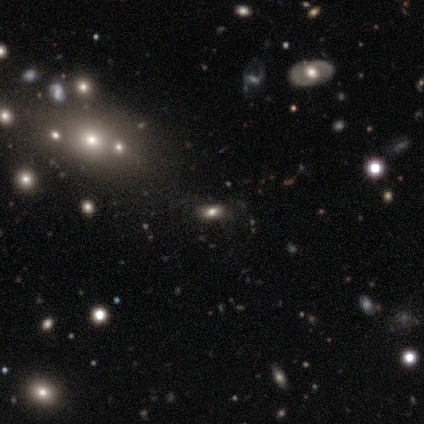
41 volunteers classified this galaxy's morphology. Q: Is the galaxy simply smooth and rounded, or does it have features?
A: smooth — 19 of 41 (46%).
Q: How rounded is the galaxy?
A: in between — 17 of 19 (89%).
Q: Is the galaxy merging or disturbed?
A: none — 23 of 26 (88%).